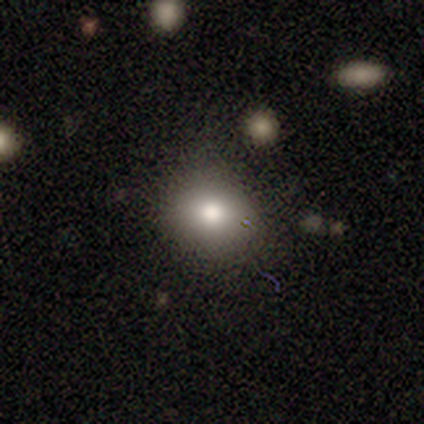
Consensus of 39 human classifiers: Smooth or featured? smooth (79%)
How rounded? round (74%)
Merging? none (75%)